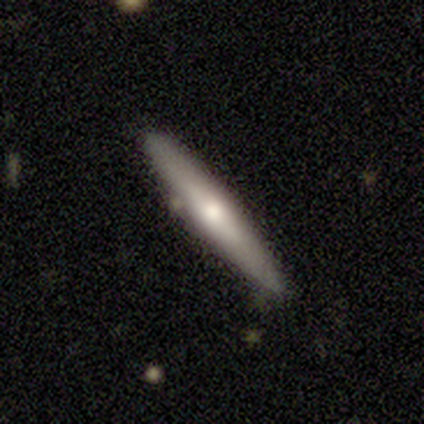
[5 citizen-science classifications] smooth_or_featured: featured or disk (p=0.60) [alt: smooth p=0.20]
disk_edge_on: yes (p=1.00)
edge_on_bulge: rounded (p=0.67) [alt: none p=0.33]
merging: none (p=1.00)